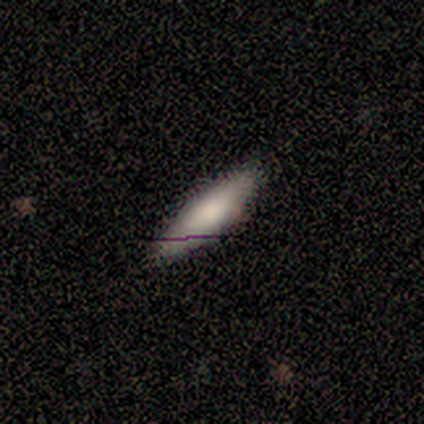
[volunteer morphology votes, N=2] Q: Smooth or featured?
A: smooth (50%); tied with: star or artifact (50%)
Q: How rounded?
A: cigar-shaped (100%)
Q: Merging?
A: none (100%)